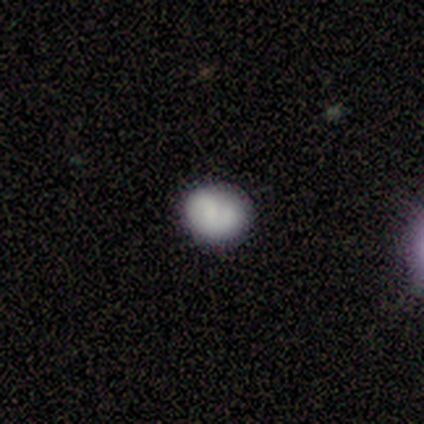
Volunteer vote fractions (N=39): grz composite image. It shows a smooth galaxy with no disk features (67%) that is round (73%). Merging: none (64%).